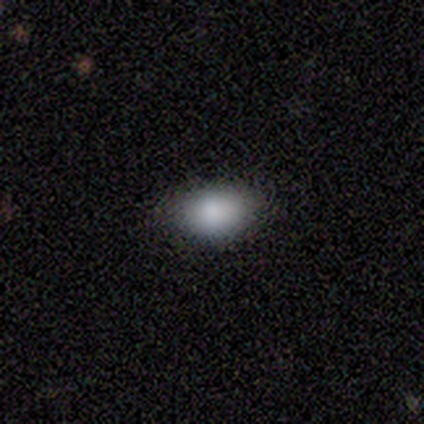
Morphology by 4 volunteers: This is likely a smooth galaxy (75%). How rounded: clearly in between (100%). Merging: clearly none (100%).